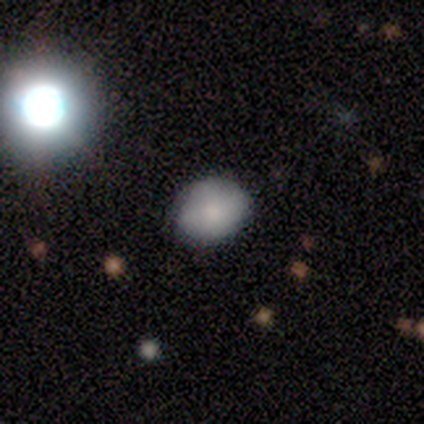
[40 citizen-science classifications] Smooth or featured?
  - smooth: 68% *
  - star or artifact: 18%
  - featured or disk: 15%
How rounded?
  - round: 59% *
  - in between: 41%
  - cigar-shaped: 0%
Merging?
  - none: 88% *
  - minor disturbance: 6%
  - major disturbance: 3%
  - merger: 3%